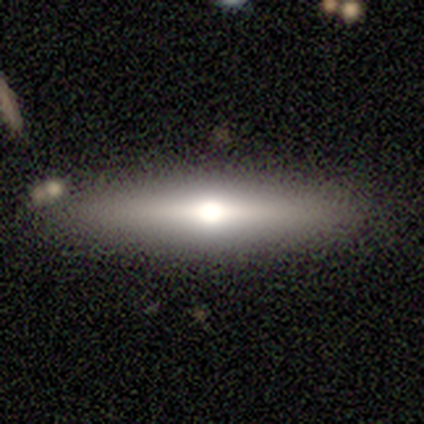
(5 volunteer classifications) featured or disk 80%, smooth 20%, star or artifact 0%. Down the decision tree: edge-on disk — yes (100%); edge-on bulge — rounded (100%); merging — none (100%).